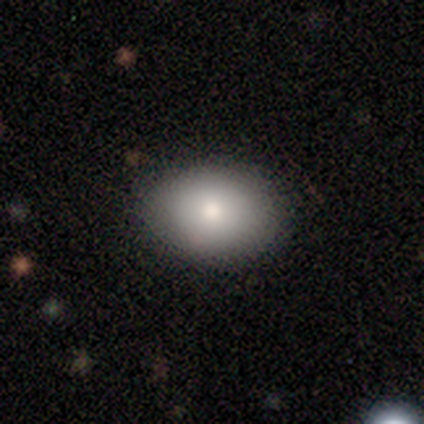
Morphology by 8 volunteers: Smooth or featured: smooth — 75% (featured or disk — 12%)
How rounded: round — 67% (in between — 33%)
Merging: none — 100%